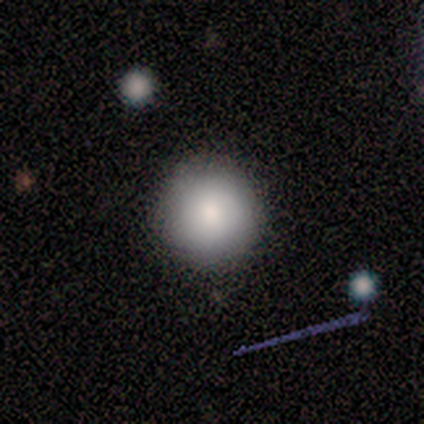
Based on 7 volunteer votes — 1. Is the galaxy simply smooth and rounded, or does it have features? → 100% smooth, 0% featured or disk, 0% star or artifact.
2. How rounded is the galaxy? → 86% round, 14% in between, 0% cigar-shaped.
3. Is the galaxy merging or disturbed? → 86% none, 14% minor disturbance, 0% major disturbance, 0% merger.